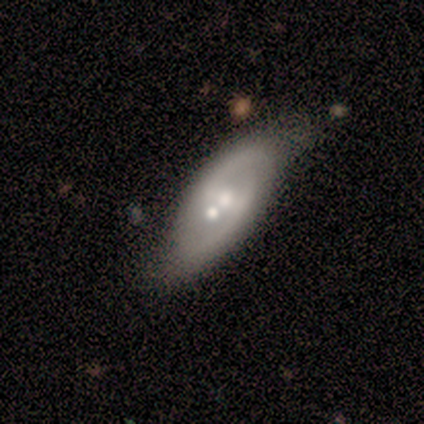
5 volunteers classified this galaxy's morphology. This appears to be a featured or disk galaxy (100%) with no bar (60%), 2 (100%) medium (67%) spiral arms (60%) and a moderate central bulge (60%). Merging: none (60%).